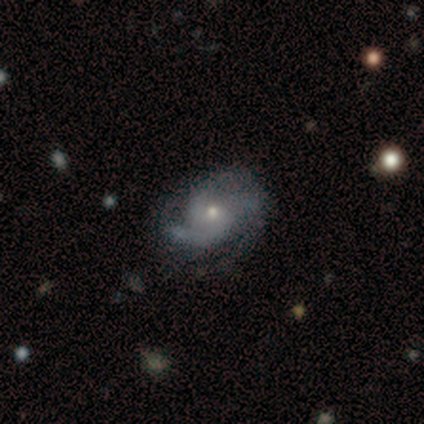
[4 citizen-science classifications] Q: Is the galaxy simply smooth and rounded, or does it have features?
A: featured or disk — 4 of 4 (100%).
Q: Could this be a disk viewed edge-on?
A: no — 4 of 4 (100%).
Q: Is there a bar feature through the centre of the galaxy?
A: no — 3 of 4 (75%).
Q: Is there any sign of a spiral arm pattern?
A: yes — 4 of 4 (100%).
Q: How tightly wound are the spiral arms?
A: tight — 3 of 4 (75%).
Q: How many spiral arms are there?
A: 3 — 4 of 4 (100%).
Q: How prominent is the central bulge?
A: moderate — 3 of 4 (75%).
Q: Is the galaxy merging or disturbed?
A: minor disturbance — 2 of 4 (50%).